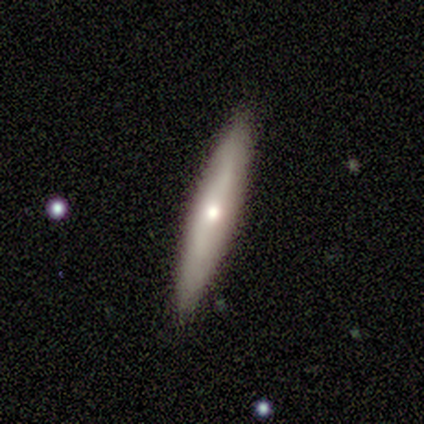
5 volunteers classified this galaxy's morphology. smooth 80%, featured or disk 20%, star or artifact 0%. Down the decision tree: how rounded — cigar-shaped (100%); merging — none (100%).